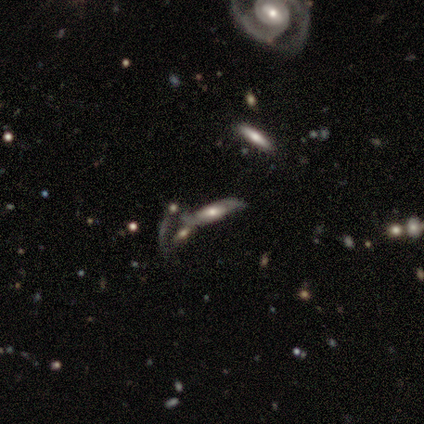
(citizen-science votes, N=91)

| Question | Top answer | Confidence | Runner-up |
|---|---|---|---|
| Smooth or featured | featured or disk | 77% | smooth (20%) |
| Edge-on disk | no | 67% | yes (33%) |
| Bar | no | 62% | weak (23%) |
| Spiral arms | yes | 64% | no (36%) |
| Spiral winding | loose | 43% | tight (33%) |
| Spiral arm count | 2 | 80% | can't tell (20%) |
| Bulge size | moderate | 49% | large (23%) |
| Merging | merger | 44% | none (32%) |